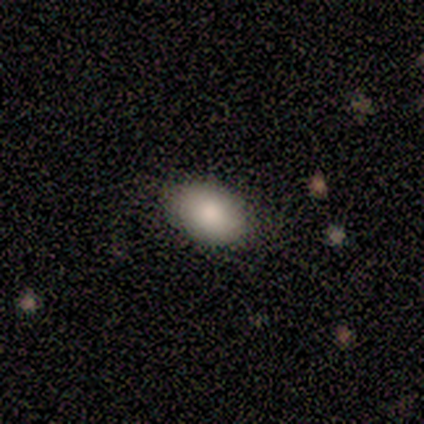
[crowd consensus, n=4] This appears to be a smooth galaxy with no disk features (100%) that is in between round and cigar-shaped (100%). Merging: none (100%).